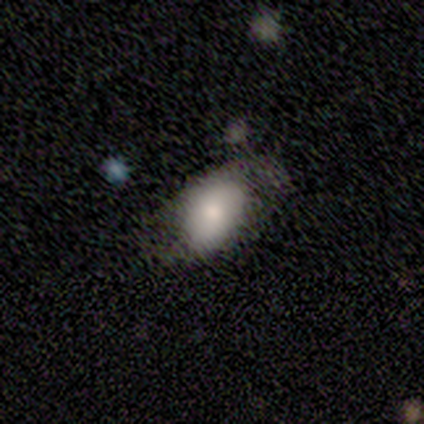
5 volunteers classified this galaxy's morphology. This is clearly a smooth galaxy (100%). How rounded: clearly in between (100%). Merging: likely none (60%).